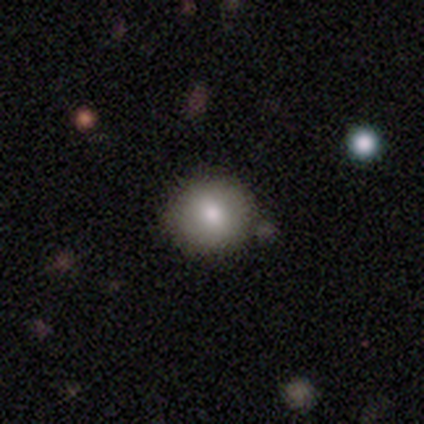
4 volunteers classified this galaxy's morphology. This appears to be a smooth galaxy with no disk features (75%) that is round (100%). Merging: none (100%).